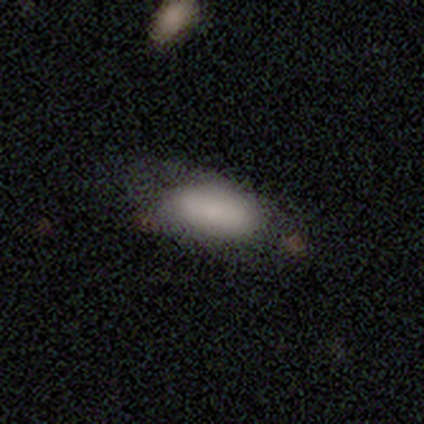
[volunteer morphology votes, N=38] Smooth or featured? 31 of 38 (82%) said smooth. How rounded? 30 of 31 (97%) said in between. Merging? 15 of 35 (43%) said none.